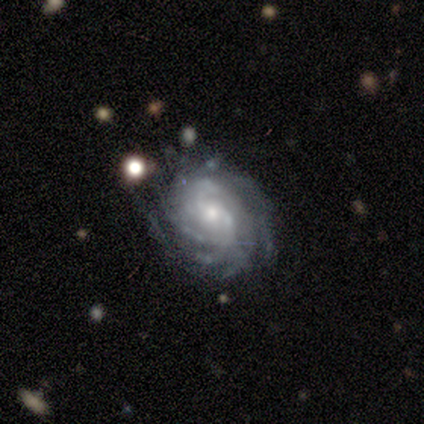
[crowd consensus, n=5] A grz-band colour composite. It shows a featured or disk galaxy (80%) with a weak bar (50%, tied with no), more than 4 (50%) tight (75%) spiral arms (100%) and a moderate central bulge (50%, tied with small). Merging: none (60%).